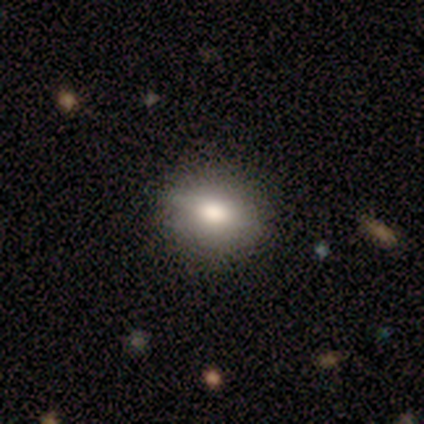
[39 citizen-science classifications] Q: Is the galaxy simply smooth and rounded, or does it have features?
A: smooth — 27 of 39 (69%).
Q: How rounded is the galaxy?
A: round — 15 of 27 (56%).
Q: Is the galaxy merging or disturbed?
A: none — 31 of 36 (86%).